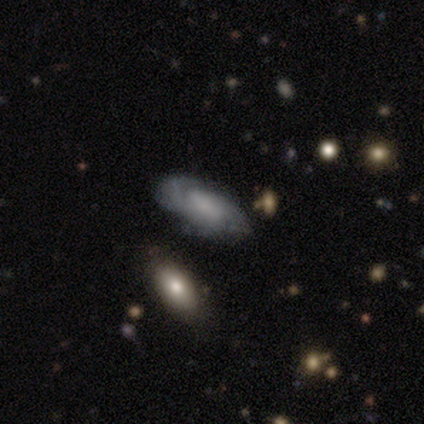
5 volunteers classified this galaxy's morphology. This appears to be a featured or disk galaxy (80%) with a weak bar (75%), 2 (100%) medium (100%) spiral arms (75%) and a moderate central bulge (50%). Merging: minor disturbance (75%).